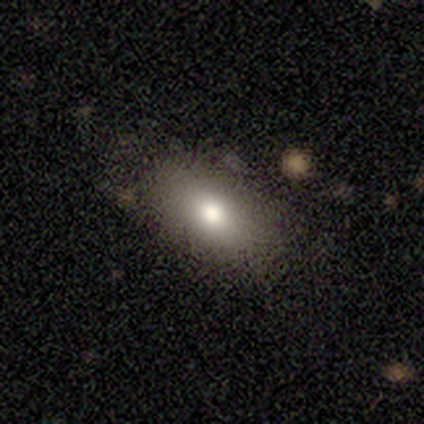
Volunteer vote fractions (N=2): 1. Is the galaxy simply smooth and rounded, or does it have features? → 100% smooth, 0% featured or disk, 0% star or artifact.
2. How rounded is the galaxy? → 100% in between, 0% round, 0% cigar-shaped.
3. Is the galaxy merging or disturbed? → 50% none (tied), 50% minor disturbance (tied), 0% major disturbance, 0% merger.